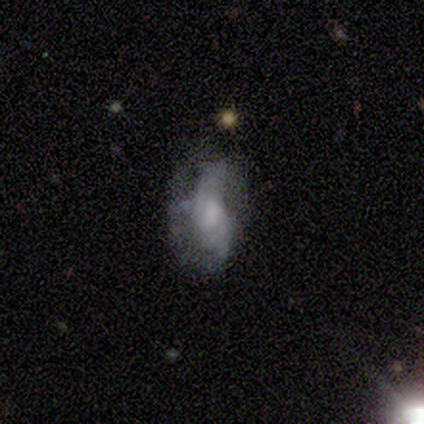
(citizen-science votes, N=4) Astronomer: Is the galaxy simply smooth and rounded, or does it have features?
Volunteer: featured or disk — 75%.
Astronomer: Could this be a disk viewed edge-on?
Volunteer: no — 100%.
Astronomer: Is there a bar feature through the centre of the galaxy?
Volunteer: no — 67%.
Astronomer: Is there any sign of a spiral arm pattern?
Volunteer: yes — 100%.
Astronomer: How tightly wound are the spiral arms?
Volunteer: loose — 67%.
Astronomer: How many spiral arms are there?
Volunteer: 2 — 67%.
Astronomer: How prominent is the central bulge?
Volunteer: none — 100%.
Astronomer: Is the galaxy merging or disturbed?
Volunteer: none — 75%.